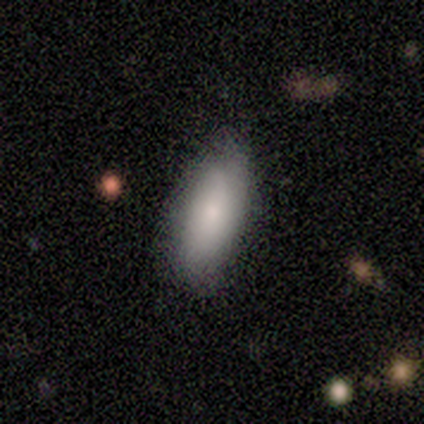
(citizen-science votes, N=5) This is clearly a smooth galaxy (80%). How rounded: likely in between (75%). Merging: clearly none (80%).